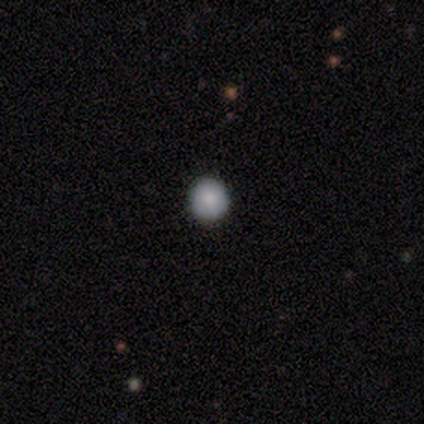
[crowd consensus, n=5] This appears to be a smooth galaxy with no disk features (100%) that is round (100%). Merging: none (80%).